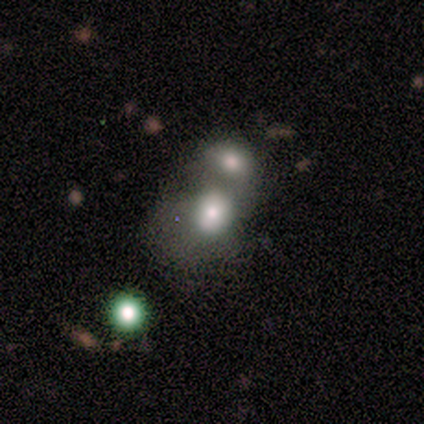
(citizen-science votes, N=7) Morphology: type=smooth (71%); roundness=round (60%); merging=merger (71%).